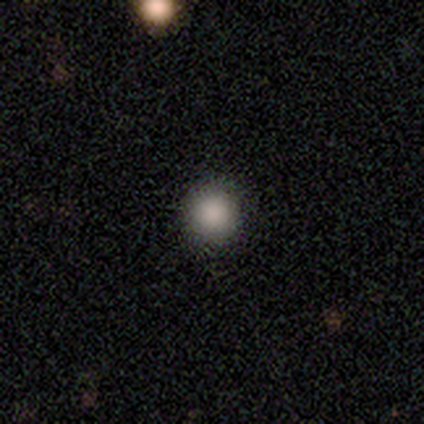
A smooth galaxy with no disk features (89%) that is round (88%).

Vote fractions:
- Smooth or featured? smooth: 89% / star or artifact: 11% / featured or disk: 0%
- How rounded? round: 88% / in between: 12% / cigar-shaped: 0%
- Merging? none: 75% / minor disturbance: 25% / major disturbance: 0% / merger: 0%